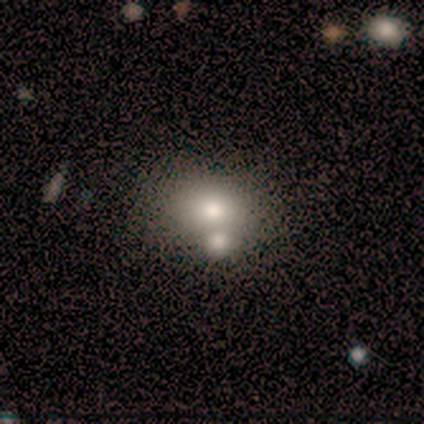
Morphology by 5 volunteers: Smooth or featured? smooth (80%)
How rounded? round (75%)
Merging? merger (60%)